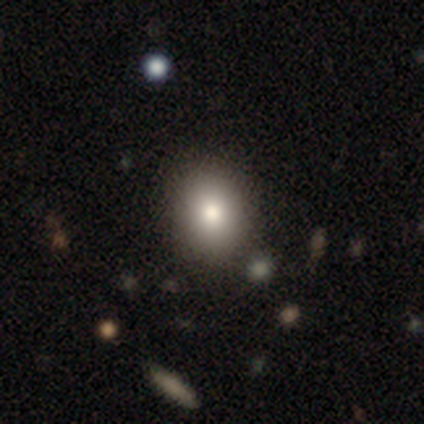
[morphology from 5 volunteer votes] smooth-or-featured: smooth: 60% | featured or disk: 20% | star or artifact: 20%
  how-rounded: in between: 67% | round: 33% | cigar-shaped: 0%
  merging: none: 75% | major disturbance: 25% | minor disturbance: 0% | merger: 0%